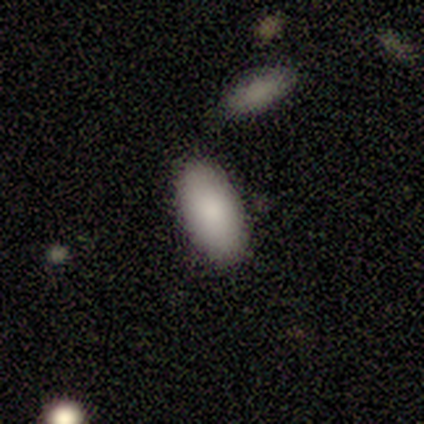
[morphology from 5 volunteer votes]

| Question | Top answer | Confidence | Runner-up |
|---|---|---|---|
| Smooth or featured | smooth | 100% | — |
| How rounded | in between | 100% | — |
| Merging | none | 100% | — |